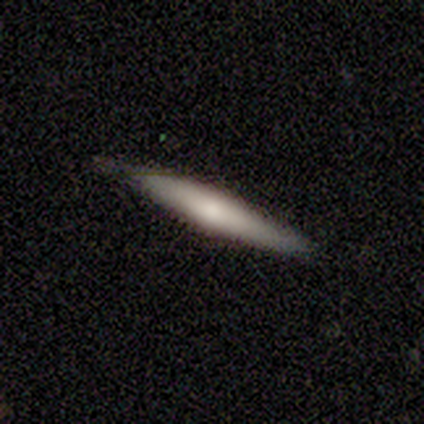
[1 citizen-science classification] Smooth or featured: smooth — 100%
How rounded: cigar-shaped — 100%
Merging: none — 100%